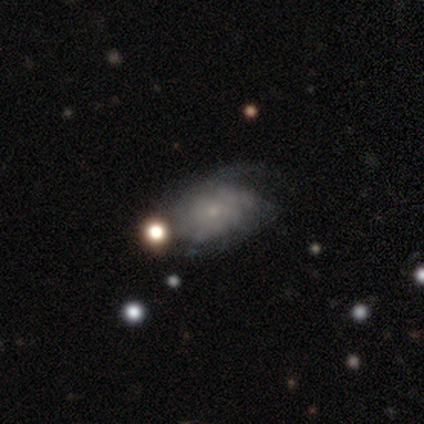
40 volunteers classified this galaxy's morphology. Volunteers were most divided on "merging": none: 24%, minor disturbance: 19%, major disturbance: 14%, merger: 0%. More confident: edge-on disk — no (100%); bar — no (92%); bulge size — small (88%); spiral arms — yes (75%); spiral arm count — can't tell (72%); smooth or featured — featured or disk (60%); spiral winding — loose (50%).